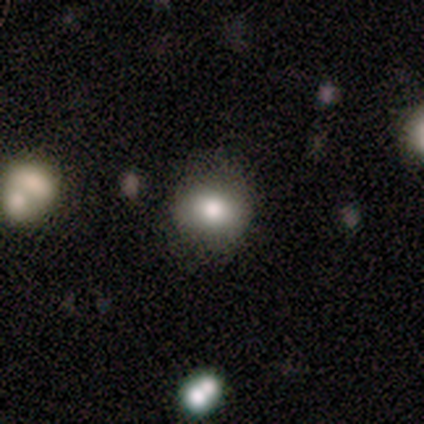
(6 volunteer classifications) Q: Smooth or featured?
A: smooth (83%); runner-up: featured or disk (17%)
Q: How rounded?
A: round (80%); runner-up: in between (20%)
Q: Merging?
A: none (67%); runner-up: minor disturbance (33%)